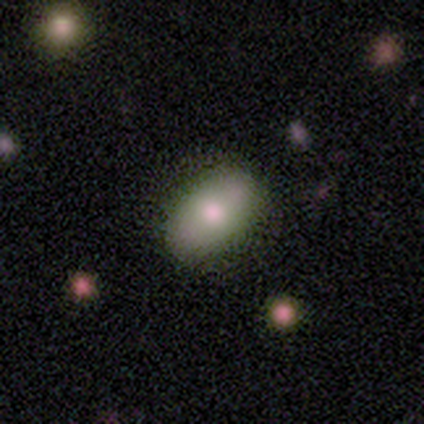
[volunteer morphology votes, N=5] smooth-or-featured: smooth: 80% | featured or disk: 20% | star or artifact: 0%
  how-rounded: in between: 75% | round: 25% | cigar-shaped: 0%
  merging: none: 100% | minor disturbance: 0% | major disturbance: 0% | merger: 0%